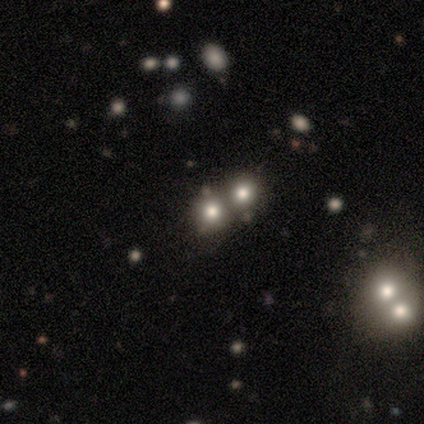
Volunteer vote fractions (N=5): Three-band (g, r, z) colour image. It shows a smooth galaxy with no disk features (80%) that is round (75%). Merging: merger (75%).